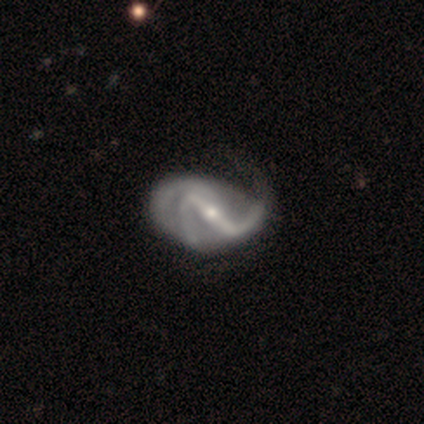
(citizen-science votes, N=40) Morphology: type=featured or disk (98%); edge-on=no (100%); bar=strong (82%); spiral arms=yes (97%); winding=loose (66%); arm count=2 (55%); bulge=small (59%); merging=none (40%).